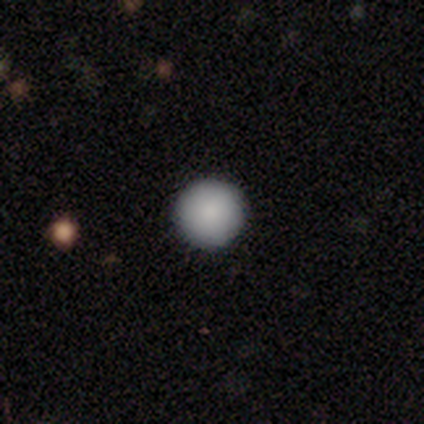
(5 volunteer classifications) Overall: smooth (100%). How rounded: round (100%). Merging: none (100%).